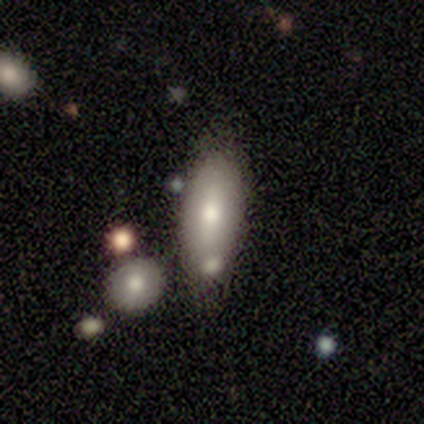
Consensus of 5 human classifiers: Smooth or featured? smooth (80%)
How rounded? in between (75%)
Merging? none (40%, tied with merger)